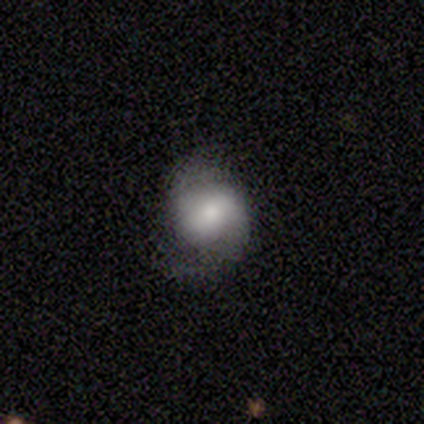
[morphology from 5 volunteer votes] Q: Smooth or featured?
A: featured or disk (60%); runner-up: smooth (40%)
Q: Edge-on disk?
A: no (100%)
Q: Bar?
A: weak (67%); runner-up: no (33%)
Q: Spiral arms?
A: yes (100%)
Q: Spiral winding?
A: tight (33%); tied with: medium (33%); loose (33%)
Q: Spiral arm count?
A: 2 (100%)
Q: Bulge size?
A: moderate (67%); runner-up: large (33%)
Q: Merging?
A: none (80%); runner-up: minor disturbance (20%)